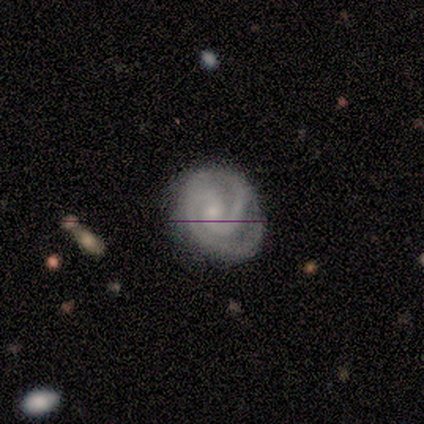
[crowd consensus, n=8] Smooth or featured? featured or disk (88%)
Edge-on disk? no (100%)
Bar? no (57%)
Spiral arms? yes (86%)
Spiral winding? tight (50%, tied with medium)
Spiral arm count? 2 (83%)
Bulge size? small (86%)
Merging? none (62%)